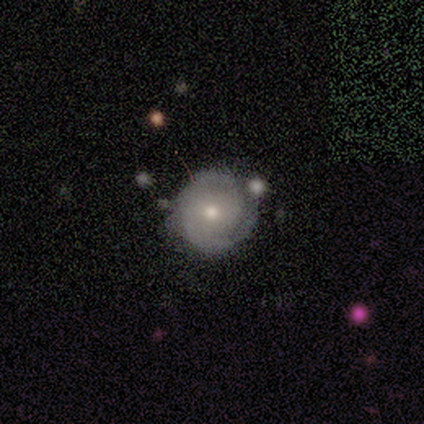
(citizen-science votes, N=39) A smooth galaxy with no disk features (51%) that is round (95%). Merging: none (70%).